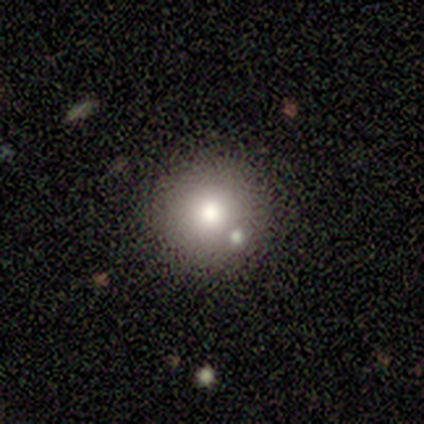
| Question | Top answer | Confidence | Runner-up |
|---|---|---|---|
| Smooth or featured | smooth | 80% | featured or disk (20%) |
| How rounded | round | 75% | in between (25%) |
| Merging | minor disturbance | 60% | none (20%) |